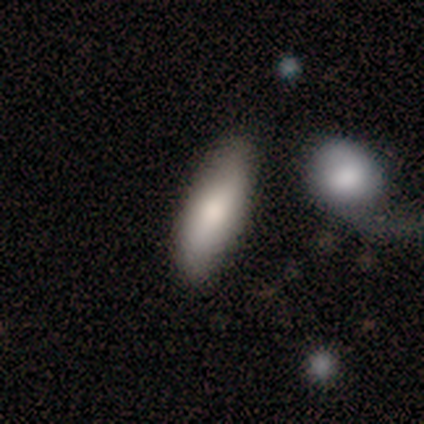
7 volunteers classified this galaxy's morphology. A smooth galaxy with no disk features (86%) that is in between round and cigar-shaped (50%, tied with cigar-shaped). Merging: none (71%).